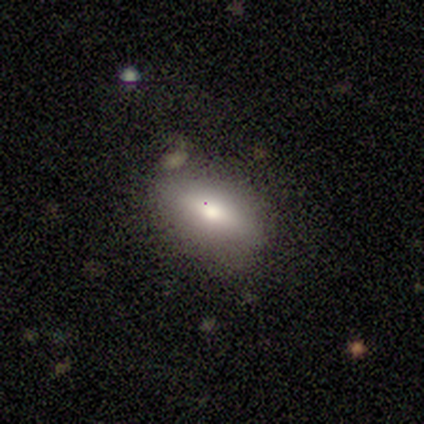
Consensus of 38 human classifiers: Volunteers were most divided on "smooth or featured": smooth: 74%, featured or disk: 21%, star or artifact: 5%. More confident: merging — none (81%); how rounded — in between (79%).